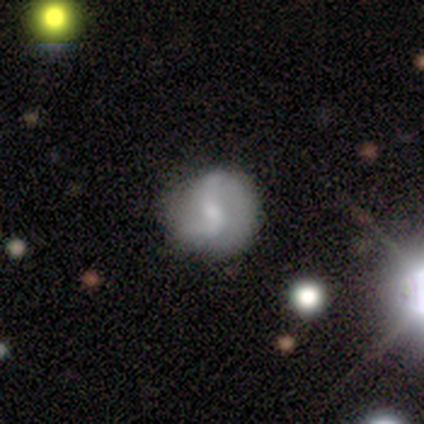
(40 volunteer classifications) Smooth or featured?
  - featured or disk: 75% *
  - smooth: 22%
  - star or artifact: 2%
Edge-on disk?
  - no: 97% *
  - yes: 3%
Bar?
  - weak: 55% *
  - no: 34%
  - strong: 10%
Spiral arms?
  - yes: 93% *
  - no: 7%
Spiral winding?
  - loose: 59% *
  - medium: 37%
  - tight: 4%
Spiral arm count?
  - 2: 89% *
  - can't tell: 7%
  - 3: 4%
  - 1: 0%
  - 4: 0%
  - more than 4: 0%
Bulge size?
  - small: 48% *
  - moderate: 34%
  - none: 14%
  - large: 3%
  - dominant: 0%
Merging?
  - none: 49% *
  - minor disturbance: 18%
  - major disturbance: 8%
  - merger: 0%